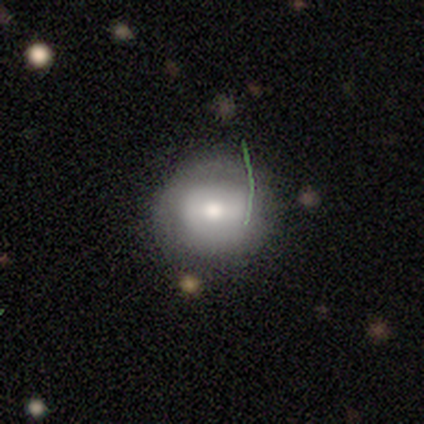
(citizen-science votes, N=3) smooth-or-featured: smooth: 67% | featured or disk: 33% | star or artifact: 0%
  how-rounded: round: 100% | in between: 0% | cigar-shaped: 0%
  merging: none: 67% | minor disturbance: 33% | major disturbance: 0% | merger: 0%